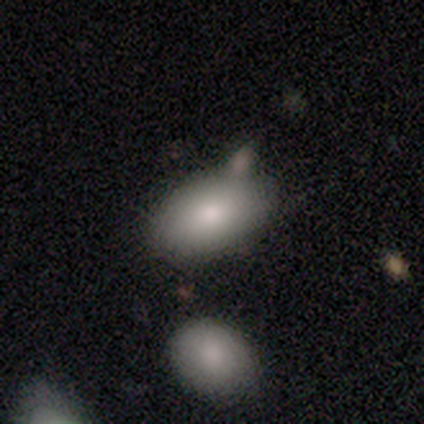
Morphology: type=smooth (80%); roundness=in between (100%); merging=none (60%).